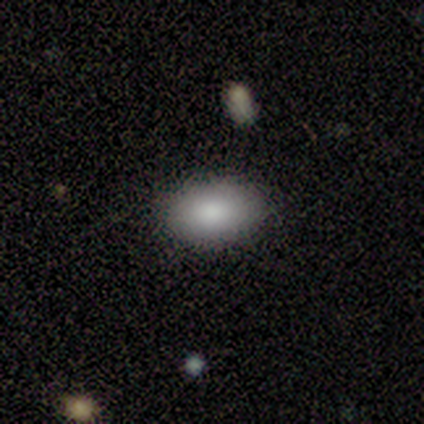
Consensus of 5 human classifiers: Smooth or featured: smooth — 80% (featured or disk — 20%)
How rounded: in between — 100%
Merging: none — 60% (minor disturbance — 40%)